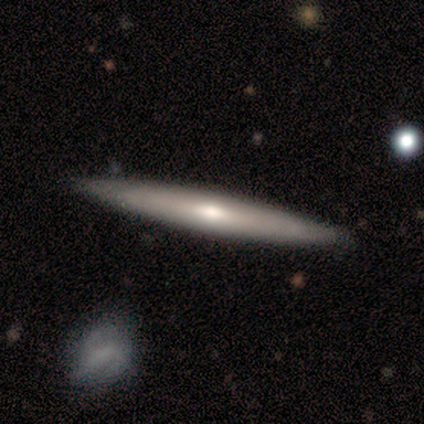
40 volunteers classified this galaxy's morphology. Smooth or featured? 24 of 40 (60%) said featured or disk. Edge-on disk? 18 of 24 (75%) said yes. Edge-on bulge? 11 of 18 (61%) said rounded. Merging? 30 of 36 (83%) said none.